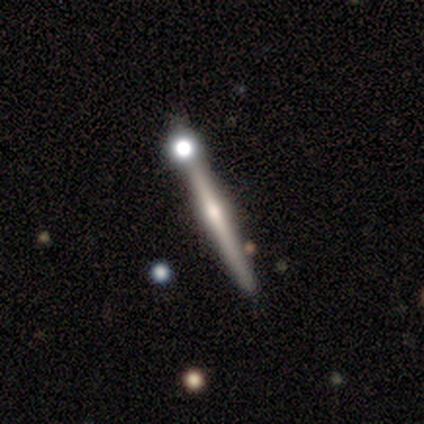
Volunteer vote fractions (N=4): Volunteers were most divided on "edge-on bulge" (2-way tie): none: 50%, rounded: 50%, boxy: 0%. More confident: smooth or featured — featured or disk (100%); edge-on disk — yes (100%); merging — none (100%).